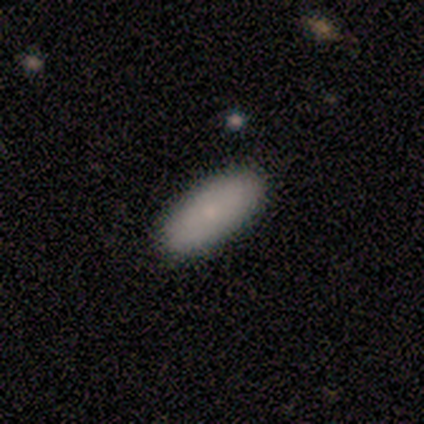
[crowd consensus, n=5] Smooth or featured? smooth (100%)
How rounded? in between (60%)
Merging? none (100%)